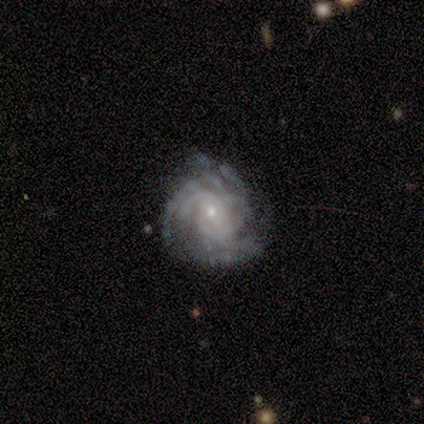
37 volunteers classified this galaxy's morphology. Smooth or featured?
  - featured or disk: 100% *
  - smooth: 0%
  - star or artifact: 0%
Edge-on disk?
  - no: 95% *
  - yes: 5%
Bar?
  - no: 69% *
  - weak: 26%
  - strong: 6%
Spiral arms?
  - yes: 100% *
  - no: 0%
Spiral winding?
  - tight: 54% *
  - medium: 46%
  - loose: 0%
Spiral arm count?
  - can't tell: 31% *
  - more than 4: 26%
  - 3: 23%
  - 2: 14%
  - 4: 6%
  - 1: 0%
Bulge size?
  - small: 83% *
  - moderate: 17%
  - dominant: 0%
  - large: 0%
  - none: 0%
Merging?
  - none: 46% *
  - minor disturbance: 14%
  - major disturbance: 3%
  - merger: 3%